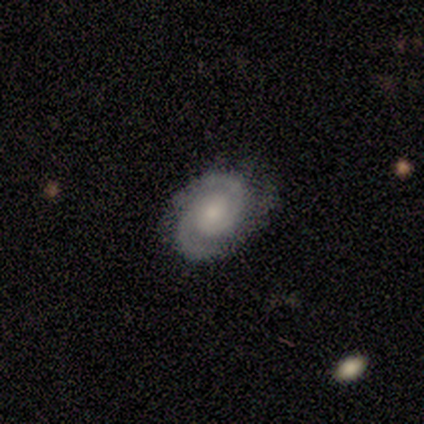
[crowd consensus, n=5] Smooth or featured: featured or disk — 100%
Edge-on disk: no — 100%
Bar: no — 100%
Spiral arms: yes — 100%
Spiral winding: tight — 60% (medium — 20%)
Spiral arm count: 2 — 100%
Bulge size: small — 60% (moderate — 20%)
Merging: none — 80% (minor disturbance — 20%)